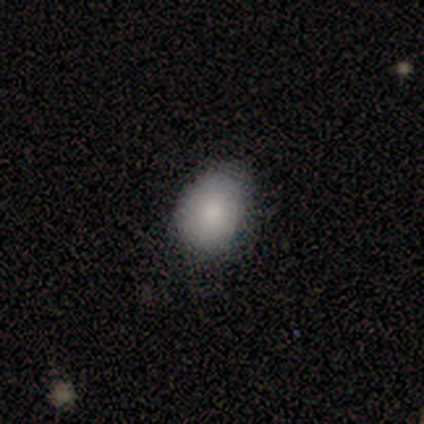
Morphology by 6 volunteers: Smooth or featured: smooth — 67% (featured or disk — 17%)
How rounded: in between — 75% (round — 25%)
Merging: none — 80% (minor disturbance — 20%)